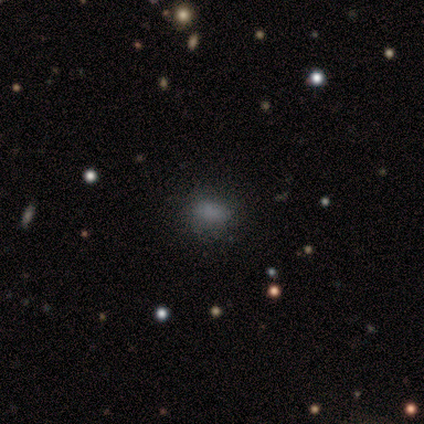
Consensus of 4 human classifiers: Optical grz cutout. It shows a smooth galaxy with no disk features (100%) that is round (50%, tied with in between). Merging: none (75%).